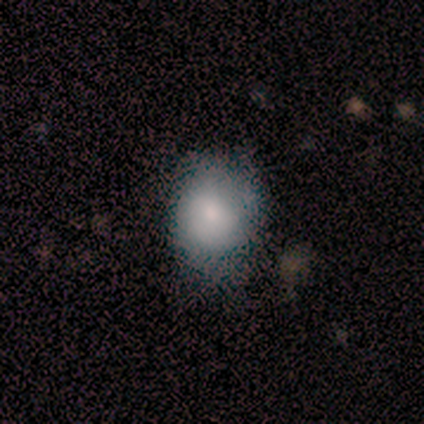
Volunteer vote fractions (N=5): This appears to be a smooth galaxy with no disk features (80%) that is round (50%, tied with in between). Merging: none (100%).